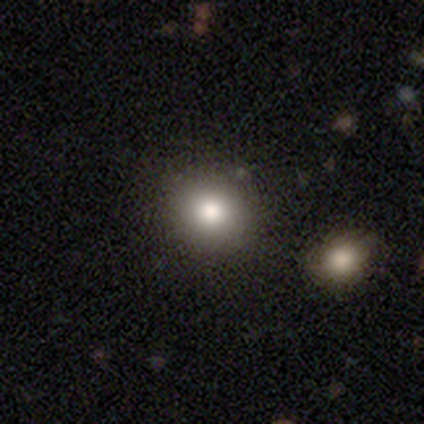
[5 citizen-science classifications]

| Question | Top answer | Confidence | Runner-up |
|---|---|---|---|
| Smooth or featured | smooth | 60% | star or artifact (40%) |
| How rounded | round | 67% | in between (33%) |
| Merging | none | 100% | — |